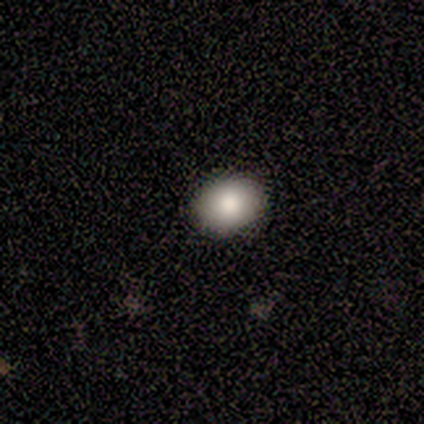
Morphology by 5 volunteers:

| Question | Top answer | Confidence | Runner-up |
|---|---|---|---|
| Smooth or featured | smooth | 100% | — |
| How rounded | in between | 60% | round (40%) |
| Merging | none | 100% | — |